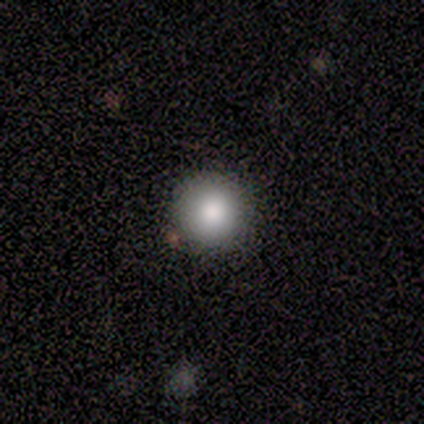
smooth_or_featured: smooth (p=0.50) [tied with: star or artifact p=0.50]
how_rounded: round (p=1.00)
merging: none (p=1.00)